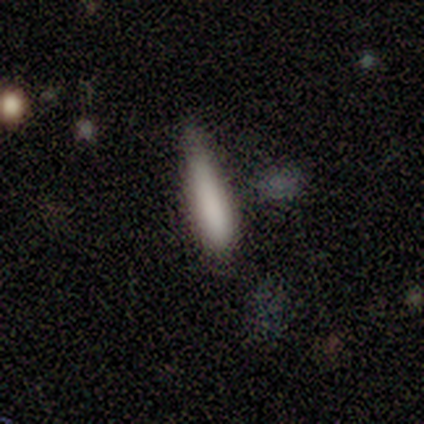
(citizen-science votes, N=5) This appears to be a smooth galaxy with no disk features (100%) that is cigar-shaped (80%). Merging: none (40%, tied with minor disturbance).